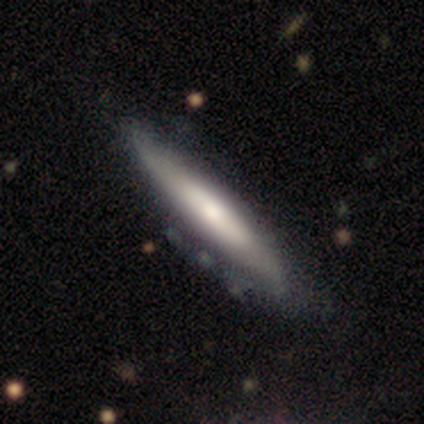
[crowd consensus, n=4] Smooth or featured?
  - smooth: 75% *
  - featured or disk: 25%
  - star or artifact: 0%
How rounded?
  - cigar-shaped: 67% *
  - in between: 33%
  - round: 0%
Merging?
  - none: 50% * (tied)
  - major disturbance: 50% * (tied)
  - minor disturbance: 0%
  - merger: 0%